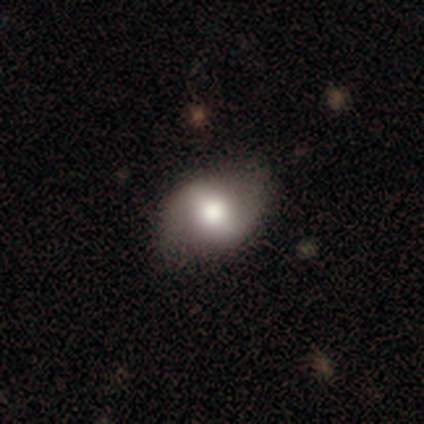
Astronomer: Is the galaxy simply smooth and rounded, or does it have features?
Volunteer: smooth — 100%.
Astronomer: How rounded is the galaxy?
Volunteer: in between — 67%.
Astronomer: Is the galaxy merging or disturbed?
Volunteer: none — 67%.